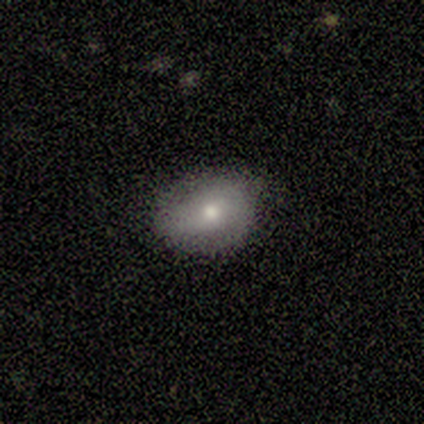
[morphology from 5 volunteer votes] Smooth or featured: smooth — 100%
How rounded: in between — 60% (round — 40%)
Merging: none — 80% (minor disturbance — 20%)